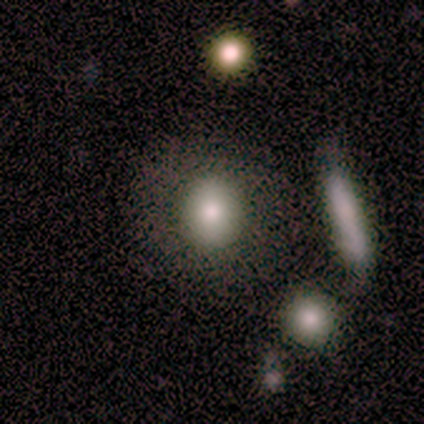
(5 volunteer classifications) Smooth or featured? smooth (80%)
How rounded? round (75%)
Merging? none (100%)